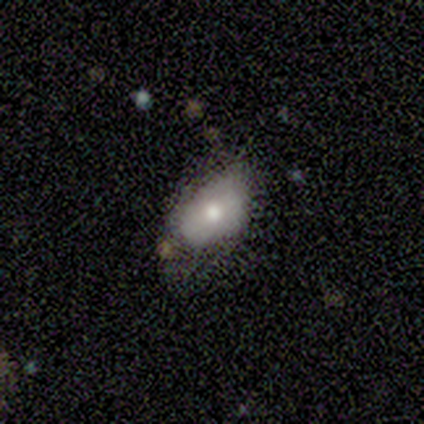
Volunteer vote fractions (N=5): smooth 80%, featured or disk 20%, star or artifact 0%. Down the decision tree: how rounded — in between (100%); merging — none (60%).